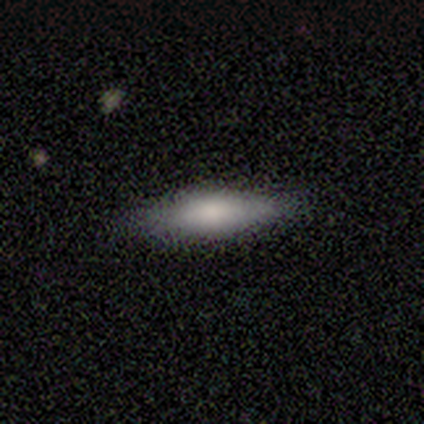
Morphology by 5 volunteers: type=smooth (100%); roundness=in between (60%); merging=none (80%).